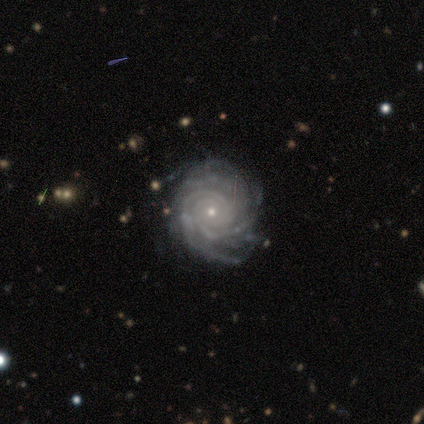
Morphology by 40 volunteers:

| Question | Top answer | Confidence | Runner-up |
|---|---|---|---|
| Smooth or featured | featured or disk | 92% | star or artifact (5%) |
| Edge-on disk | no | 97% | yes (3%) |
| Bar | no | 83% | weak (14%) |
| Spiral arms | yes | 100% | — |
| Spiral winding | tight | 89% | medium (11%) |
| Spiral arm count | more than 4 | 36% | 3 (22%) |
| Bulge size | small | 89% | moderate (8%) |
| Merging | none | 76% | minor disturbance (21%) |